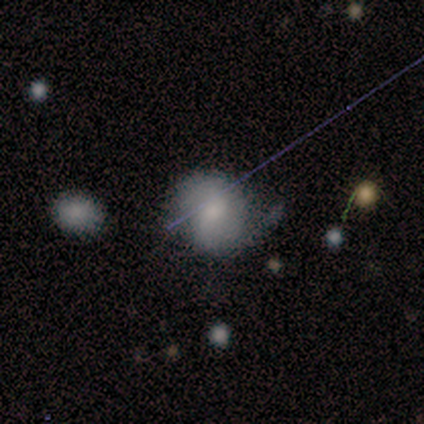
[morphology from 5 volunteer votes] smooth_or_featured: featured or disk (p=0.60) [alt: smooth p=0.20]
disk_edge_on: no (p=0.67) [alt: yes p=0.33]
bar: weak (p=0.50) [tied with: no p=0.50]
has_spiral_arms: yes (p=0.50) [tied with: no p=0.50]
spiral_winding: medium (p=1.00)
spiral_arm_count: 2 (p=1.00)
bulge_size: moderate (p=0.50) [tied with: small p=0.50]
merging: none (p=0.75) [alt: minor disturbance p=0.25]